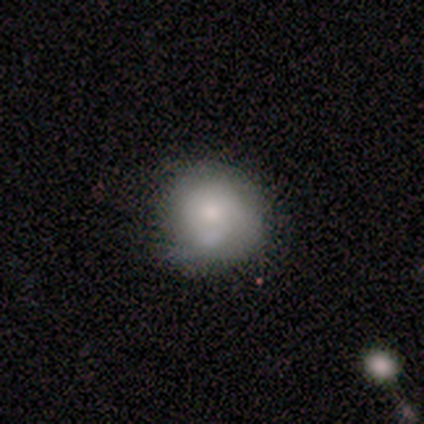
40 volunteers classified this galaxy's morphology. This appears to be a smooth galaxy with no disk features (78%) that is round (94%). Merging: none (64%).